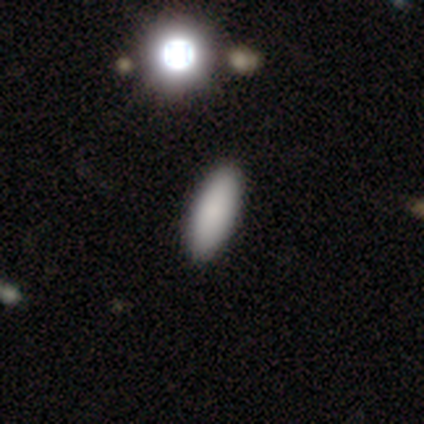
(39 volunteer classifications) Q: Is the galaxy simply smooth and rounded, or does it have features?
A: smooth — 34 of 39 (87%).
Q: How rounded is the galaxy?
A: in between — 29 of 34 (85%).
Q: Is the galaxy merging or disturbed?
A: none — 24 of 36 (67%).